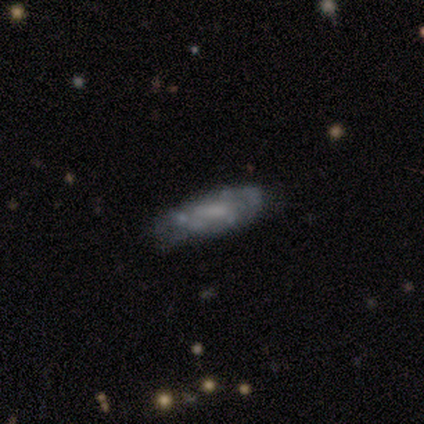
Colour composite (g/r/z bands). It shows a featured or disk galaxy (60%) with no bar (100%), tight (100%) spiral arms (50%, tied with no) and a small central bulge (50%, tied with none). Merging: none (60%).